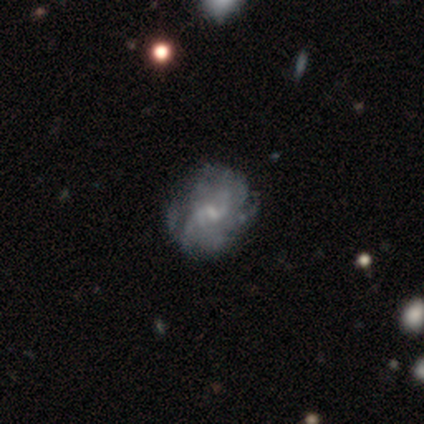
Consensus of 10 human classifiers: Smooth or featured: featured or disk — 80% (smooth — 20%)
Edge-on disk: no — 100%
Bar: no — 50% (weak — 38%)
Spiral arms: yes — 88% (no — 12%)
Spiral winding: tight — 43% (tied with medium — 43%)
Spiral arm count: can't tell — 57% (2 — 14%)
Bulge size: moderate — 38% (tied with none — 38%)
Merging: none — 80% (minor disturbance — 20%)